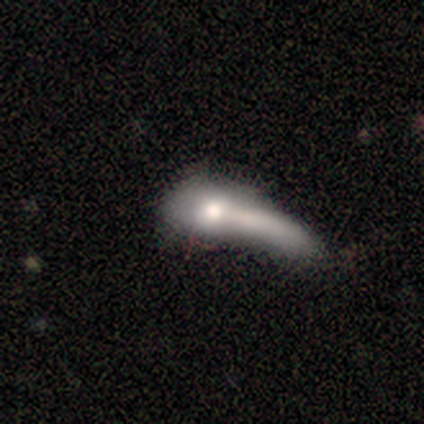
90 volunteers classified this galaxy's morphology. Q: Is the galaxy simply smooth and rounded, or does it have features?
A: smooth — 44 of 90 (49%).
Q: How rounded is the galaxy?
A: cigar-shaped — 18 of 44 (41%).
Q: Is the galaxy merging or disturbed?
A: major disturbance — 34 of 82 (41%).